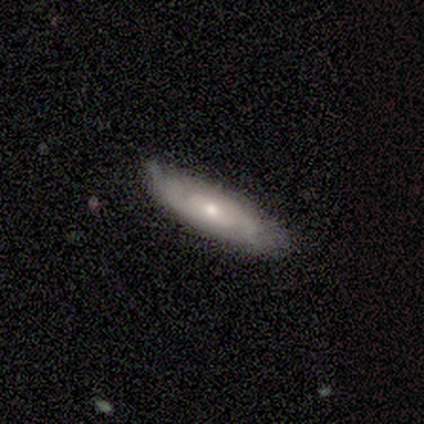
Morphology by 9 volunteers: Q: Smooth or featured?
A: featured or disk (78%); runner-up: smooth (22%)
Q: Edge-on disk?
A: no (86%); runner-up: yes (14%)
Q: Bar?
A: no (83%); runner-up: weak (17%)
Q: Spiral arms?
A: yes (67%); runner-up: no (33%)
Q: Spiral winding?
A: tight (100%)
Q: Spiral arm count?
A: 2 (50%); tied with: can't tell (50%)
Q: Bulge size?
A: small (50%); runner-up: moderate (33%)
Q: Merging?
A: none (56%); runner-up: minor disturbance (33%)